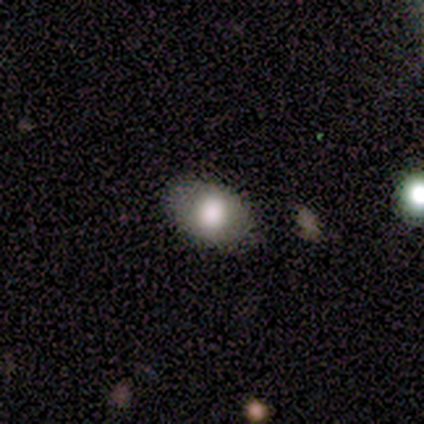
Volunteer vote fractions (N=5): smooth 100%, featured or disk 0%, star or artifact 0%. Down the decision tree: how rounded — in between (80%); merging — none (80%).